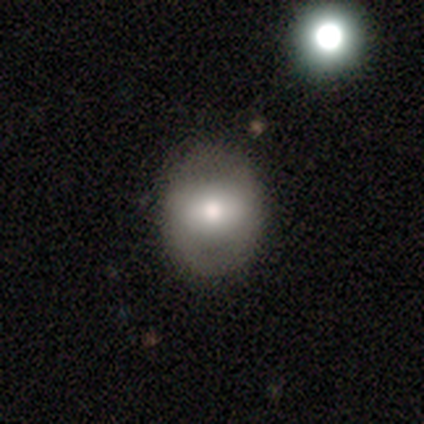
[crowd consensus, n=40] Smooth or featured?
  - smooth: 60% *
  - featured or disk: 25%
  - star or artifact: 15%
How rounded?
  - round: 62% *
  - in between: 38%
  - cigar-shaped: 0%
Merging?
  - none: 91% *
  - minor disturbance: 9%
  - major disturbance: 0%
  - merger: 0%